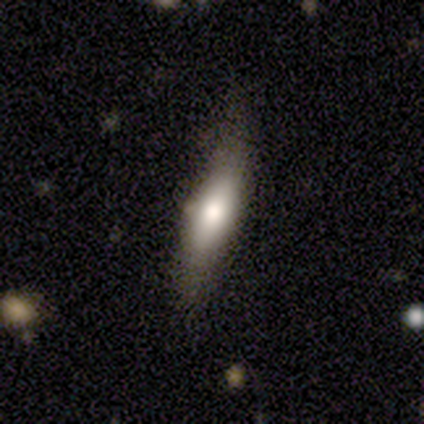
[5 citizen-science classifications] Smooth or featured?
  - smooth: 80% *
  - featured or disk: 20%
  - star or artifact: 0%
How rounded?
  - in between: 100% *
  - round: 0%
  - cigar-shaped: 0%
Merging?
  - minor disturbance: 80% *
  - merger: 20%
  - none: 0%
  - major disturbance: 0%